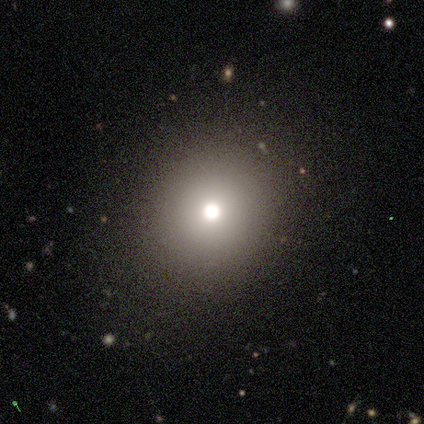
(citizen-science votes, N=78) smooth-or-featured: smooth: 71% | star or artifact: 15% | featured or disk: 14%
  how-rounded: round: 87% | in between: 13% | cigar-shaped: 0%
  merging: none: 39% | minor disturbance: 5% | major disturbance: 5% | merger: 2%